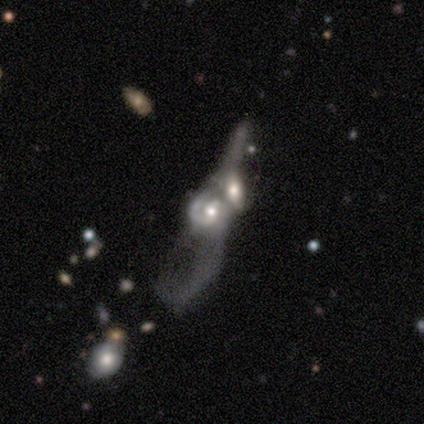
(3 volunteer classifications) A featured or disk galaxy (67%) with a weak bar (100%), 1 (50%, tied with 2) tight (50%, tied with medium) spiral arms (100%) and a moderate central bulge (50%, tied with small). Merging: merger (100%).